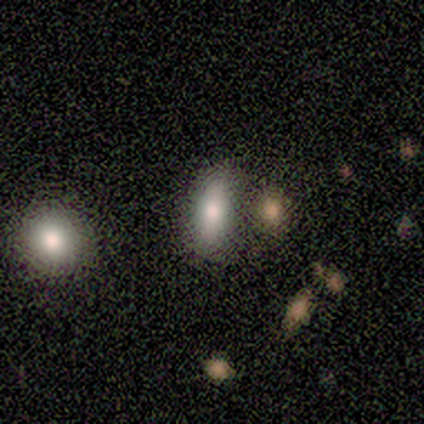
Q: Smooth or featured?
A: smooth (80%); runner-up: star or artifact (20%)
Q: How rounded?
A: in between (75%); runner-up: cigar-shaped (25%)
Q: Merging?
A: none (75%); runner-up: minor disturbance (25%)